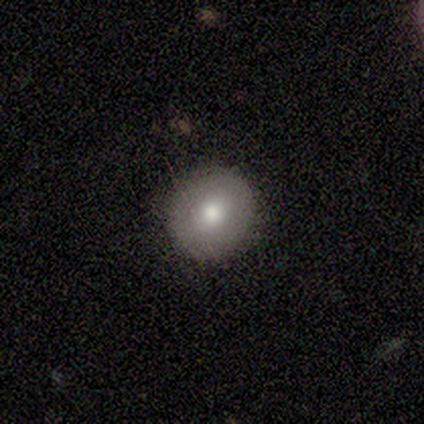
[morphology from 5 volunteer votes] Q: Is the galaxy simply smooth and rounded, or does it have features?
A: smooth — 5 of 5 (100%).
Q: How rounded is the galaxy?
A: round — 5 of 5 (100%).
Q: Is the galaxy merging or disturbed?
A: none — 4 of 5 (80%).